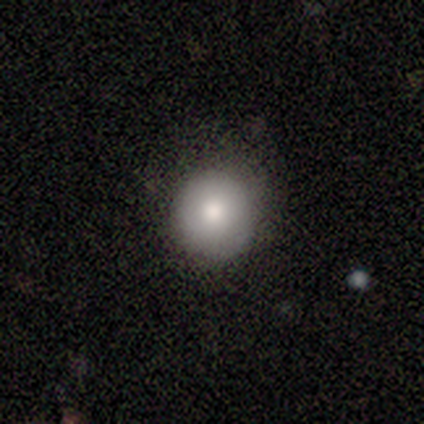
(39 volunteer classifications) Smooth or featured? smooth (79%)
How rounded? round (84%)
Merging? none (86%)